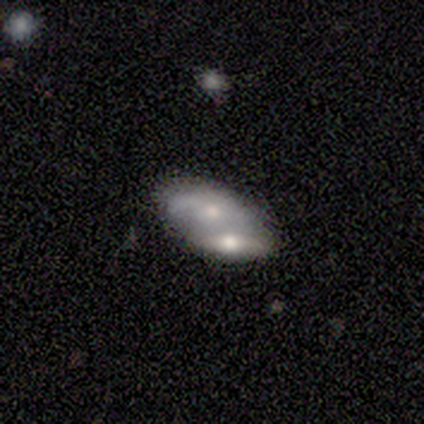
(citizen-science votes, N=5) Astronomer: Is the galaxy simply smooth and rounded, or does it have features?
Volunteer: smooth — 60% (runner-up: featured or disk, 40%).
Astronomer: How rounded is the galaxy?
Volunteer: in between — 100%.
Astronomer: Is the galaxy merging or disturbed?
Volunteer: merger — 80%.